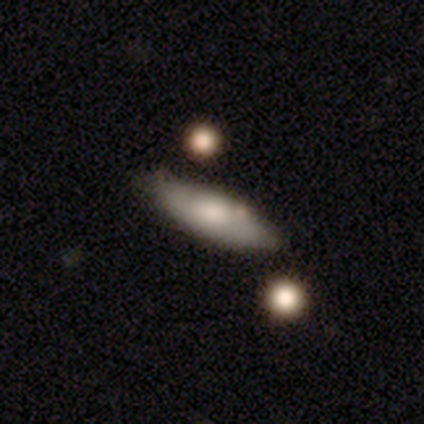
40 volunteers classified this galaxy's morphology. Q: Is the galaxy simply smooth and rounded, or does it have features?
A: smooth — 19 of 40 (48%, tied with featured or disk).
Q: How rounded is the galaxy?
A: in between — 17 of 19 (89%).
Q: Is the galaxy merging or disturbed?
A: none — 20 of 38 (53%).